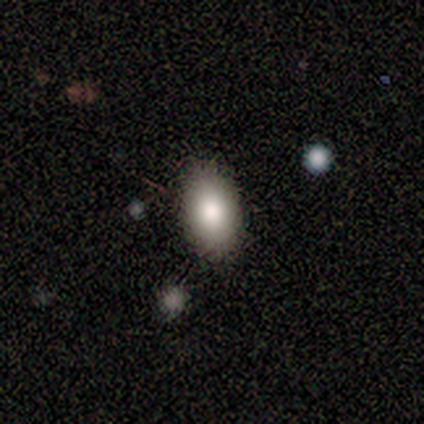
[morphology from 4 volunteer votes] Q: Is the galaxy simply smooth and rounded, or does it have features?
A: smooth — 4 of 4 (100%).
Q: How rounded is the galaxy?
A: in between — 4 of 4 (100%).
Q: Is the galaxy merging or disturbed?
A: none — 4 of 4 (100%).